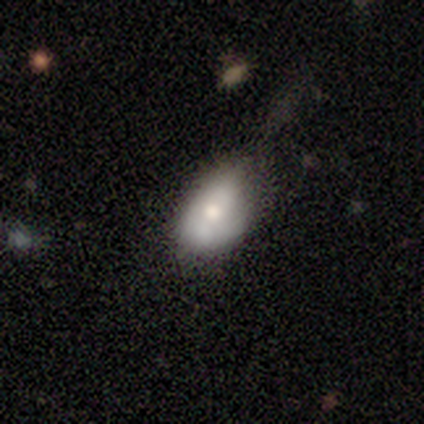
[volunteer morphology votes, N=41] This is possibly a smooth galaxy (54%). How rounded: clearly in between (82%). Merging: possibly none (57%).